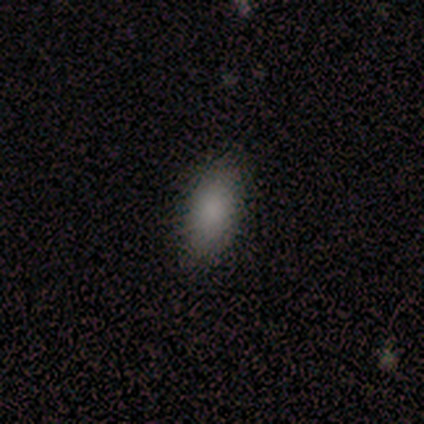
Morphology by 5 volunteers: Smooth or featured: smooth — 100%
How rounded: in between — 80% (cigar-shaped — 20%)
Merging: none — 100%